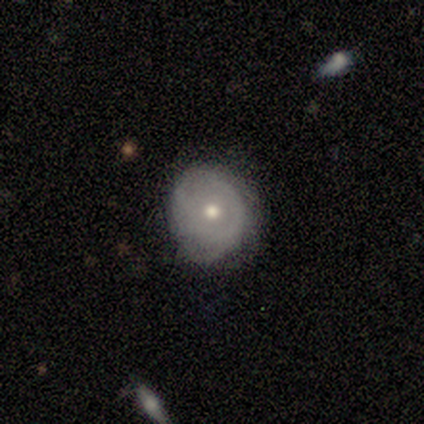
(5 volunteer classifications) This appears to be a featured or disk galaxy (80%) with no bar (75%), 2 (50%, tied with can't tell) tight (100%) spiral arms (50%, tied with no) and a moderate central bulge (75%). Merging: none (40%, tied with minor disturbance).